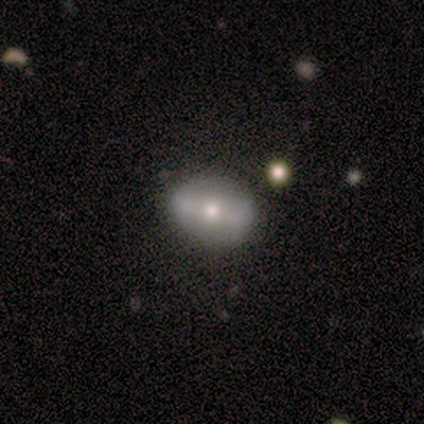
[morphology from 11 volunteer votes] Q: Smooth or featured?
A: smooth (64%); runner-up: featured or disk (27%)
Q: How rounded?
A: in between (57%); runner-up: round (43%)
Q: Merging?
A: none (90%); runner-up: minor disturbance (10%)